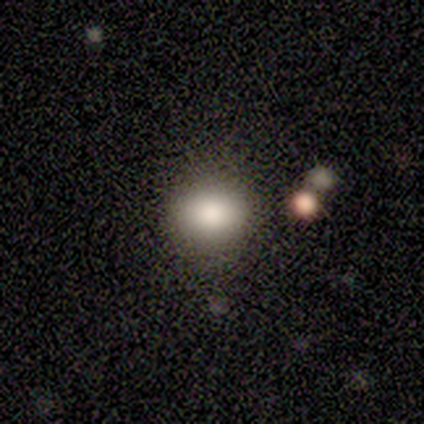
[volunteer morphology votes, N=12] A smooth galaxy with no disk features (100%) that is round (67%).

Vote fractions:
- Smooth or featured? smooth: 100% / featured or disk: 0% / star or artifact: 0%
- How rounded? round: 67% / in between: 33% / cigar-shaped: 0%
- Merging? none: 100% / minor disturbance: 0% / major disturbance: 0% / merger: 0%